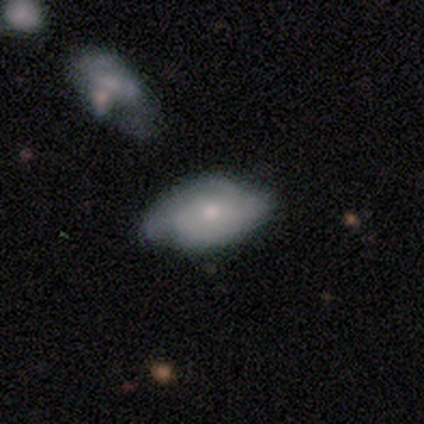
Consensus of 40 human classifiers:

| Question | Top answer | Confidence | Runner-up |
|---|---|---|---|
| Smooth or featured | featured or disk | 68% | smooth (30%) |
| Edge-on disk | no | 89% | yes (11%) |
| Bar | no | 96% | weak (4%) |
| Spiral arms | yes | 62% | no (38%) |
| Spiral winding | medium | 47% | tight (33%) |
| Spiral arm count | can't tell | 53% | 2 (27%) |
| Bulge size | moderate | 54% | small (42%) |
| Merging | none | 54% | minor disturbance (33%) |